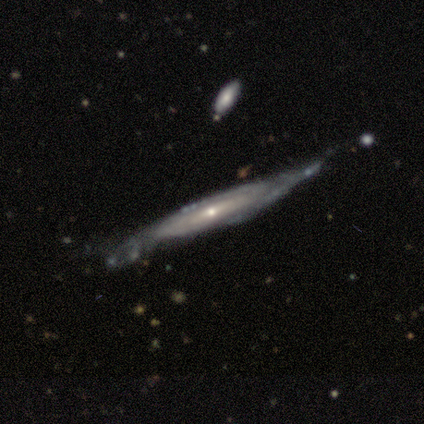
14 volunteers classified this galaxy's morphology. A featured or disk galaxy (86%) with a weak bar (43%, tied with no), 2 (50%, tied with can't tell) tight (67%) spiral arms (86%) and a small central bulge (71%). Merging: none (42%, tied with minor disturbance).